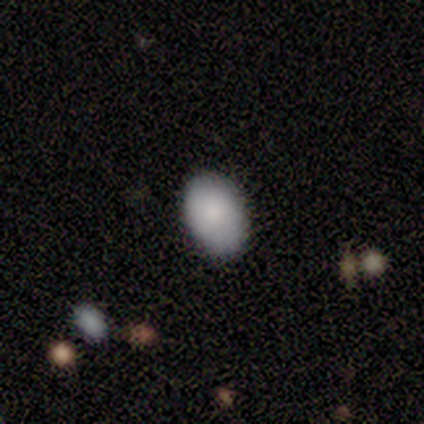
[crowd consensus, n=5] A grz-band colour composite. It shows a smooth galaxy with no disk features (100%) that is in between round and cigar-shaped (80%). Merging: none (80%).